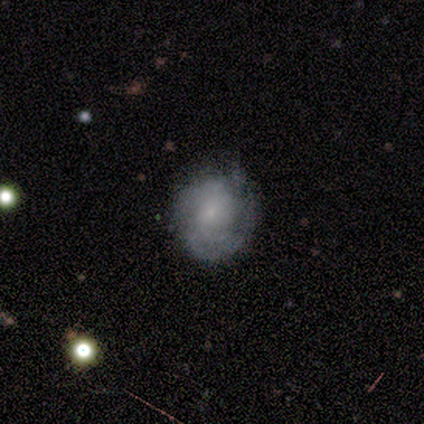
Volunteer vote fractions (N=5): featured or disk 60%, smooth 40%, star or artifact 0%. Down the decision tree: edge-on disk — no (100%); bar — no (67%); spiral arms — yes (100%); spiral arm count — 2 (67%); spiral winding — tight (33%, tied with medium and loose); bulge size — small (100%); merging — none (80%).